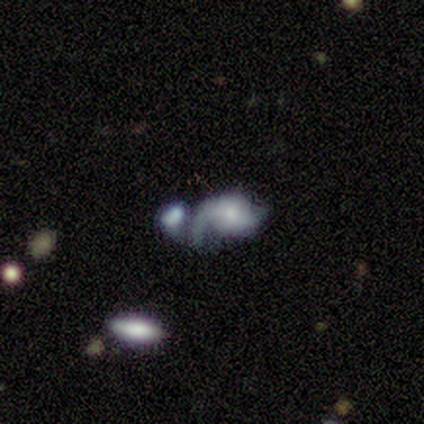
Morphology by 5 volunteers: A featured or disk galaxy (60%) with no bar (67%), 1 (100%) loose (100%) spiral arms (67%) and a small central bulge (67%).

Vote fractions:
- Smooth or featured? featured or disk: 60% / smooth: 40% / star or artifact: 0%
- Edge-on disk? no: 100% / yes: 0%
- Bar? no: 67% / weak: 33% / strong: 0%
- Spiral arms? yes: 67% / no: 33%
- Spiral winding? loose: 100% / tight: 0% / medium: 0%
- Spiral arm count? 1: 100% / 2: 0% / 3: 0% / 4: 0% / more than 4: 0% / can't tell: 0%
- Bulge size? small: 67% / moderate: 33% / dominant: 0% / large: 0% / none: 0%
- Merging? merger: 80% / minor disturbance: 20% / none: 0% / major disturbance: 0%